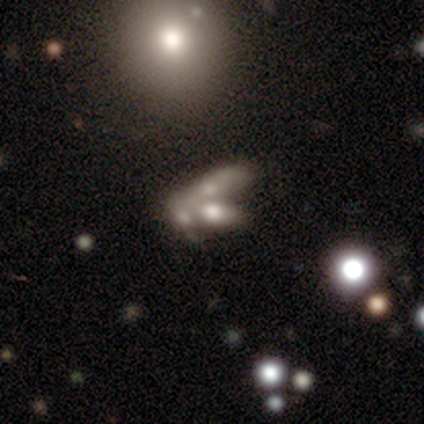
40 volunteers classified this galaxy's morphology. Q: Smooth or featured?
A: featured or disk (50%); runner-up: smooth (38%)
Q: Edge-on disk?
A: no (85%); runner-up: yes (15%)
Q: Bar?
A: no (82%); runner-up: strong (12%)
Q: Spiral arms?
A: no (94%); runner-up: yes (6%)
Q: Bulge size?
A: none (47%); runner-up: moderate (24%)
Q: Merging?
A: merger (63%); runner-up: none (11%)